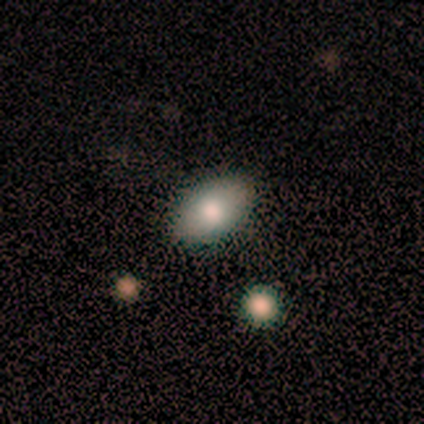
Overall: smooth (79%). How rounded: in between (91%). Merging: none (92%).